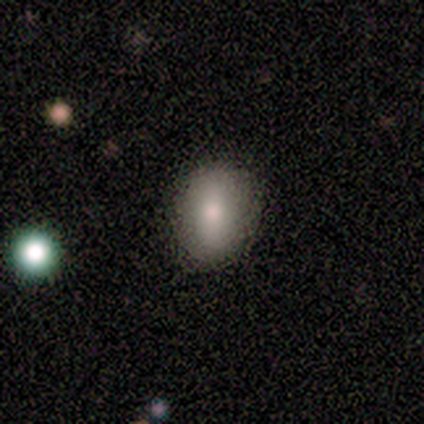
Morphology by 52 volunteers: smooth-or-featured: smooth: 79% | featured or disk: 17% | star or artifact: 4%
  how-rounded: in between: 73% | round: 27% | cigar-shaped: 0%
  merging: none: 82% | minor disturbance: 16% | merger: 2% | major disturbance: 0%